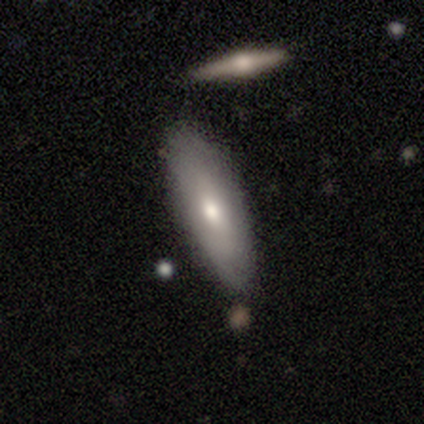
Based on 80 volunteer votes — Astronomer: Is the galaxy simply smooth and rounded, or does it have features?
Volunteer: smooth — 66%.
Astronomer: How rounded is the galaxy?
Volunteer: in between — 68%.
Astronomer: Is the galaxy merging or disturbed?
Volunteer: none — 46%.